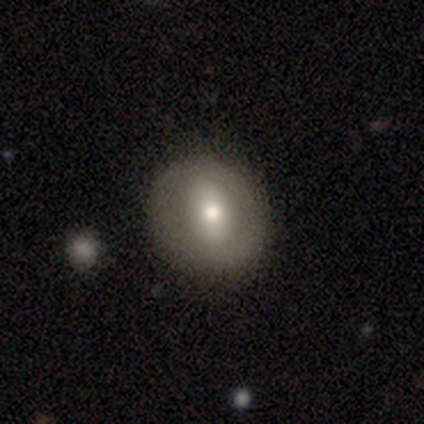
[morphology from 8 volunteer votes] Smooth or featured: featured or disk — 50% (smooth — 38%)
Edge-on disk: no — 100%
Bar: strong — 75% (no — 25%)
Spiral arms: no — 75% (yes — 25%)
Bulge size: moderate — 75% (large — 25%)
Merging: none — 71% (minor disturbance — 29%)